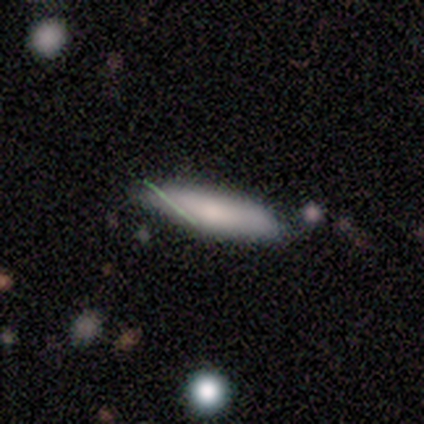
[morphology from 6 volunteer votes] Volunteers were most divided on "smooth or featured": smooth: 83%, featured or disk: 17%, star or artifact: 0%. More confident: how rounded — cigar-shaped (100%); merging — none (83%).